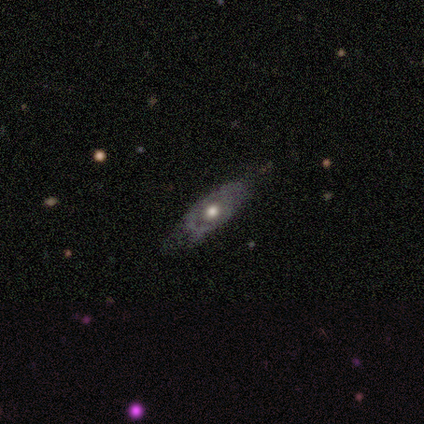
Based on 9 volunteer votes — Volunteers were most divided on "spiral arms" (2-way tie): yes: 50%, no: 50%; "spiral arm count" (2-way tie): 2: 50%, can't tell: 50%, 1: 0%, 3: 0%, 4: 0%, more than 4: 0%. More confident: bar — no (100%); spiral winding — medium (100%); merging — none (88%); edge-on disk — no (80%); bulge size — moderate (75%); smooth or featured — featured or disk (56%).